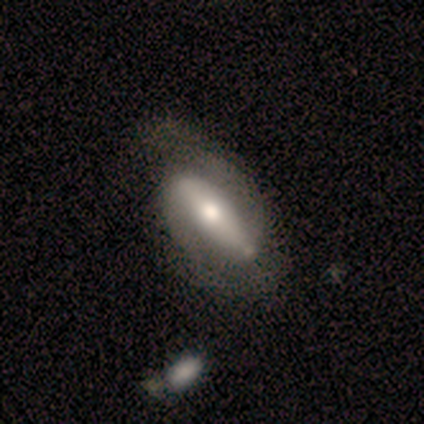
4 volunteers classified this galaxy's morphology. Overall: featured or disk (75%). Edge-on disk: no (67%; yes 33%). Bar: strong (50%, tied with weak). Spiral arms: yes (100%). Spiral arm count: 2 (100%). Spiral winding: tight (50%, tied with medium). Bulge size: moderate (100%). Merging: major disturbance (67%; none 33%).